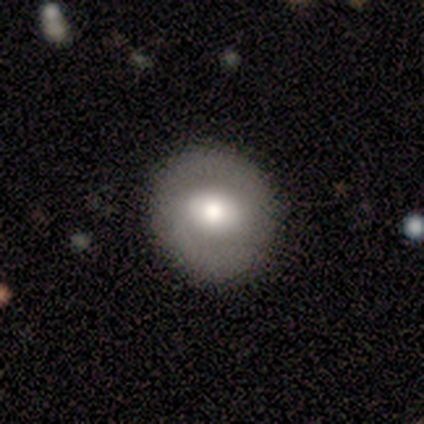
Overall: featured or disk (80%). Edge-on disk: no (100%). Bar: no (75%). Spiral arms: yes (50%, tied with no). Spiral arm count: 2 (100%). Spiral winding: medium (100%). Bulge size: moderate (50%; large 25%). Merging: none (100%).